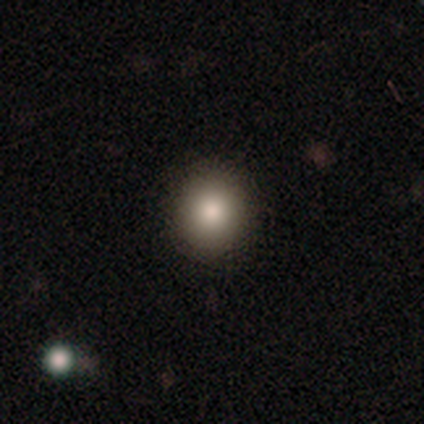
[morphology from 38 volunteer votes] Smooth or featured? 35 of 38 (92%) said smooth. How rounded? 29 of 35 (83%) said round. Merging? 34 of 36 (94%) said none.